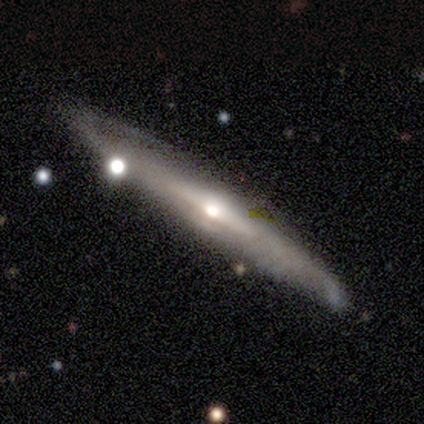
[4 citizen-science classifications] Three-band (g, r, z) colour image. It shows a featured or disk galaxy (100%) with no bar (67%), 2 (50%, tied with can't tell) tight (50%, tied with medium) spiral arms (67%) and a moderate central bulge (67%). Merging: none (75%).